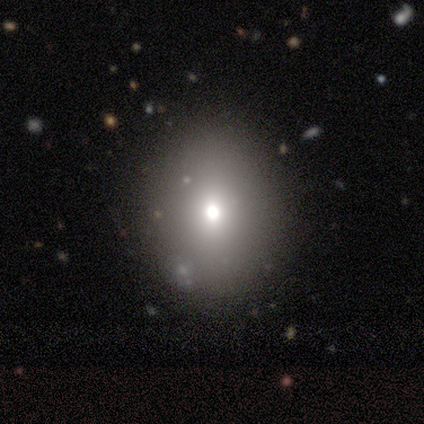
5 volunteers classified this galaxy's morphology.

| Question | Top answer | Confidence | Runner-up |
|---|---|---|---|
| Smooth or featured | smooth | 80% | star or artifact (20%) |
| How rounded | round | 50% | tied: in between (50%) |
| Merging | none | 100% | — |